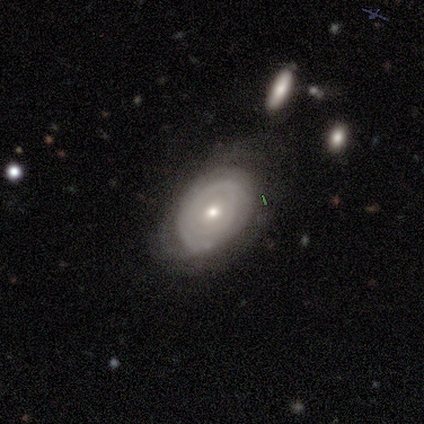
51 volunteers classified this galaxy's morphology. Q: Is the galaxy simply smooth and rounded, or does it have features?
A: featured or disk — 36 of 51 (71%).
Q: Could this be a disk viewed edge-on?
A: no — 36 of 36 (100%).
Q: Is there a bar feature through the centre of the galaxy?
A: no — 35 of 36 (97%).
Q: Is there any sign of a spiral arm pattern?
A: yes — 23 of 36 (64%).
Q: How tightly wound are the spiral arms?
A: tight — 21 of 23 (91%).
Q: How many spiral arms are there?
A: can't tell — 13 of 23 (57%).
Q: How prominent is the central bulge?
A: moderate — 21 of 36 (58%).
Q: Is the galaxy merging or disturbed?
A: none — 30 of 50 (60%).